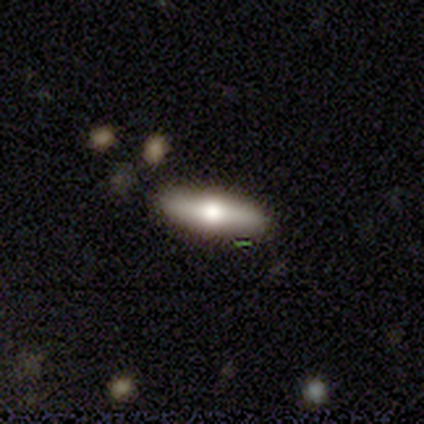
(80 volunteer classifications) Smooth or featured? 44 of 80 (55%) said smooth. How rounded? 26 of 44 (59%) said in between. Merging? 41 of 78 (53%) said none.